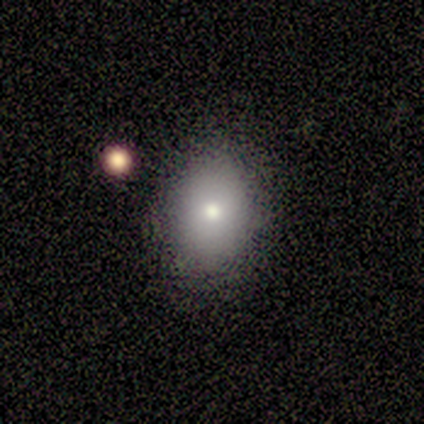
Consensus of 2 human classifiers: A smooth galaxy with no disk features (100%) that is round (100%).

Vote fractions:
- Smooth or featured? smooth: 100% / featured or disk: 0% / star or artifact: 0%
- How rounded? round: 100% / in between: 0% / cigar-shaped: 0%
- Merging? none: 50% (tied) / merger: 50% (tied) / minor disturbance: 0% / major disturbance: 0%